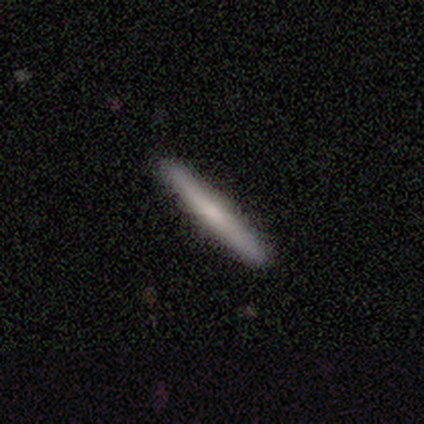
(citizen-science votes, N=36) smooth-or-featured: smooth: 50% | featured or disk: 44% | star or artifact: 6%
  how-rounded: cigar-shaped: 100% | round: 0% | in between: 0%
  merging: none: 97% | minor disturbance: 3% | major disturbance: 0% | merger: 0%